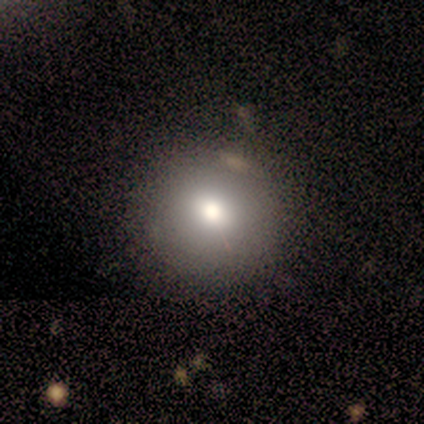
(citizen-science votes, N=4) Morphology: type=smooth (75%); roundness=round (100%); merging=none (67%).